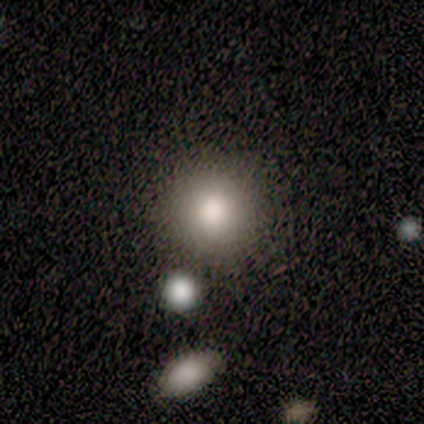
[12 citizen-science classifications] Smooth or featured? smooth (92%)
How rounded? round (100%)
Merging? none (100%)